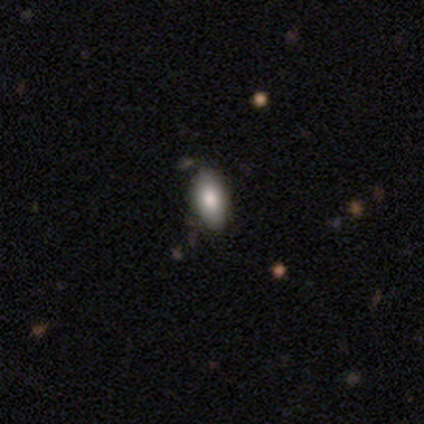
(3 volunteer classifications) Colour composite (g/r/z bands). It shows a smooth galaxy with no disk features (100%) that is in between round and cigar-shaped (67%). Merging: none (100%).